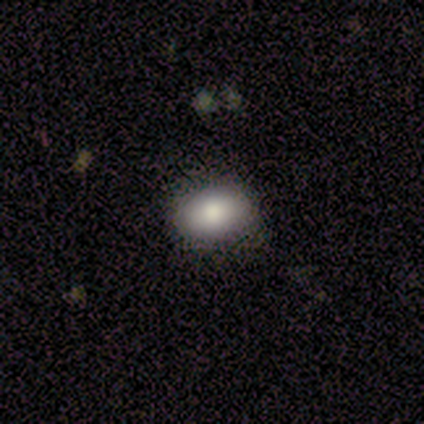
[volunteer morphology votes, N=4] smooth-or-featured: smooth: 100% | featured or disk: 0% | star or artifact: 0%
  how-rounded: in between: 75% | round: 25% | cigar-shaped: 0%
  merging: none: 100% | minor disturbance: 0% | major disturbance: 0% | merger: 0%